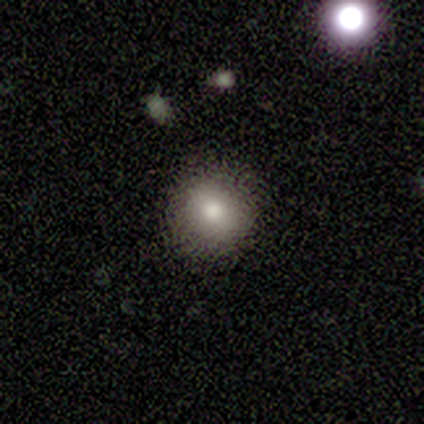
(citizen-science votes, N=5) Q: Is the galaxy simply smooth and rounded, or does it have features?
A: smooth — 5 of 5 (100%).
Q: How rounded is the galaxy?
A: round — 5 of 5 (100%).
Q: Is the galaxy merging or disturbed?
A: none — 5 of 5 (100%).